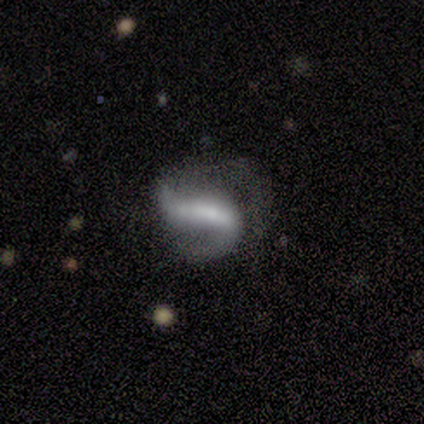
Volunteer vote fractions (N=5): smooth_or_featured: featured or disk (p=0.80) [alt: star or artifact p=0.20]
disk_edge_on: no (p=1.00)
bar: strong (p=0.50) [tied with: weak p=0.50]
has_spiral_arms: yes (p=1.00)
spiral_winding: medium (p=0.75) [alt: loose p=0.25]
spiral_arm_count: 2 (p=1.00)
bulge_size: moderate (p=0.50) [tied with: small p=0.50]
merging: none (p=0.50) [alt: minor disturbance p=0.25]